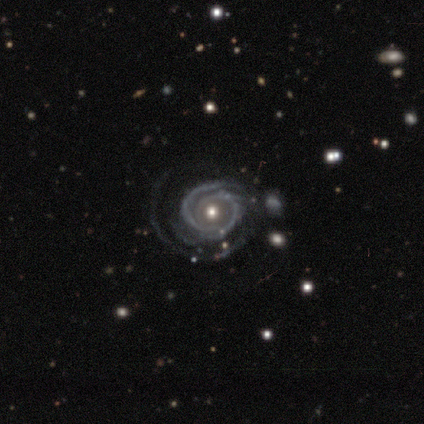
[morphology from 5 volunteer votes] Smooth or featured? featured or disk (100%)
Edge-on disk? no (100%)
Bar? no (100%)
Spiral arms? yes (100%)
Spiral winding? tight (60%)
Spiral arm count? can't tell (40%)
Bulge size? moderate (80%)
Merging? minor disturbance (40%, tied with major disturbance)